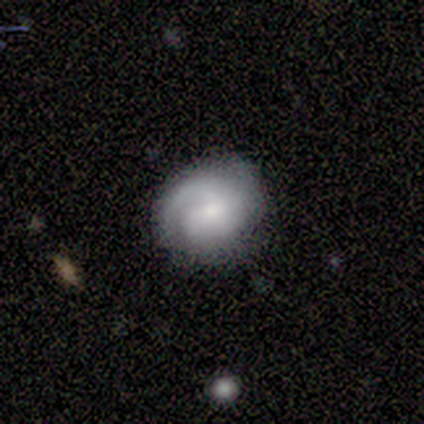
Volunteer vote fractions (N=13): Overall: smooth (54%; featured or disk 46%). How rounded: round (71%). Merging: none (92%).